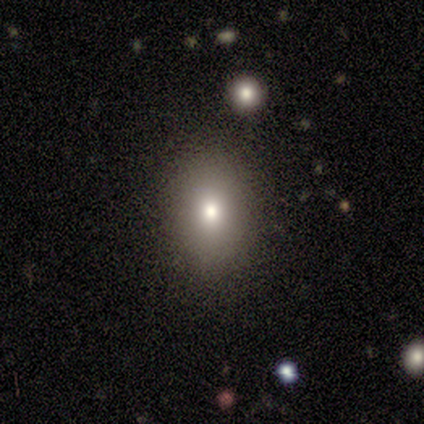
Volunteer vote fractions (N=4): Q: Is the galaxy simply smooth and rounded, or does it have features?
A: smooth — 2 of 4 (50%).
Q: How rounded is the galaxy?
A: in between — 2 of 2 (100%).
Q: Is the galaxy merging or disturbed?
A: none — 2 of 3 (67%).